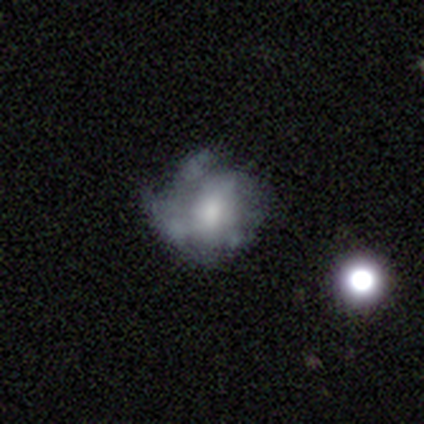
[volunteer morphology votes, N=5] featured or disk 80%, smooth 20%, star or artifact 0%. Down the decision tree: edge-on disk — no (100%); bar — no (75%); spiral arms — yes (50%, tied with no); spiral arm count — can't tell (100%); spiral winding — tight (50%, tied with loose); bulge size — moderate (50%, tied with small); merging — none (100%).